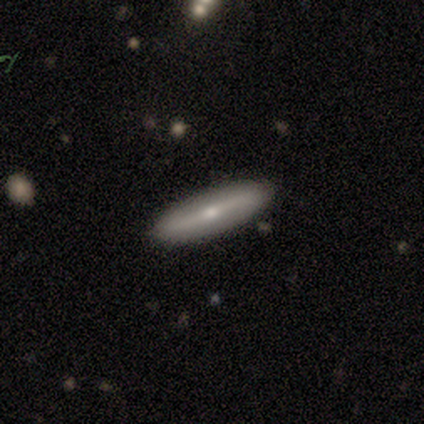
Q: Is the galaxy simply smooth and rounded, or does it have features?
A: smooth — 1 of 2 (50%, tied with featured or disk).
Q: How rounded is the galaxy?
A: cigar-shaped — 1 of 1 (100%).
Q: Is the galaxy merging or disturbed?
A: none — 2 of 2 (100%).